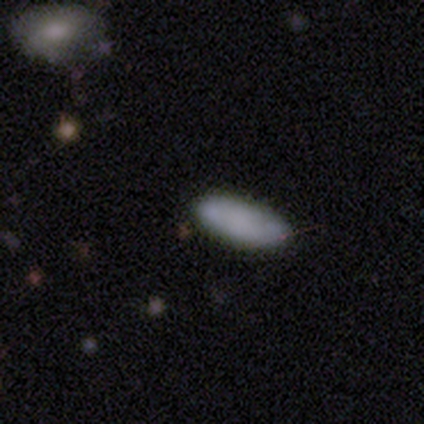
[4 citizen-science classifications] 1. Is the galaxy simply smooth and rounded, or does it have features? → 100% smooth, 0% featured or disk, 0% star or artifact.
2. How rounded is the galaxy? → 100% in between, 0% round, 0% cigar-shaped.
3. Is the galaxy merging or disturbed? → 100% none, 0% minor disturbance, 0% major disturbance, 0% merger.